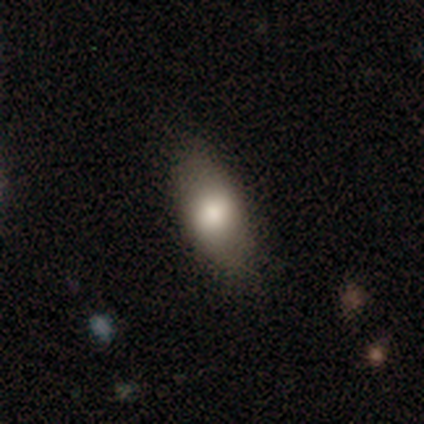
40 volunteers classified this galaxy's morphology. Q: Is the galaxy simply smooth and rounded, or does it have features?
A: smooth — 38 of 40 (95%).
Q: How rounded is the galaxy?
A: in between — 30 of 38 (79%).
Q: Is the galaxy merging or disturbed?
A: none — 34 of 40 (85%).